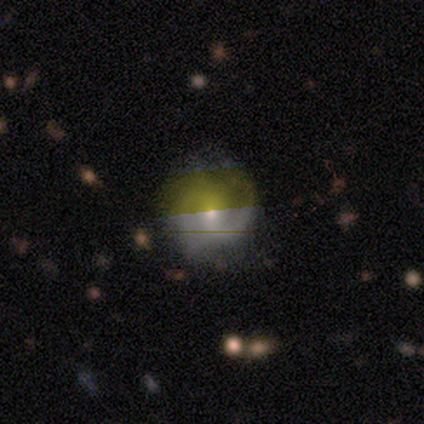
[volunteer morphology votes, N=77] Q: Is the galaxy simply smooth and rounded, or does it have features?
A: featured or disk — 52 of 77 (68%).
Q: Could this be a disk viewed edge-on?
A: no — 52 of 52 (100%).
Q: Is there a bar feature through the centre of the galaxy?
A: no — 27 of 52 (52%).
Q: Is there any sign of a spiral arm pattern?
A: yes — 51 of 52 (98%).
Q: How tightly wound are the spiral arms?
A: medium — 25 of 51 (49%).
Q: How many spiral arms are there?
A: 2 — 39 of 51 (76%).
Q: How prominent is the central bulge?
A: small — 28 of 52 (54%).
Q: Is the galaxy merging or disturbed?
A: none — 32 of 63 (51%).